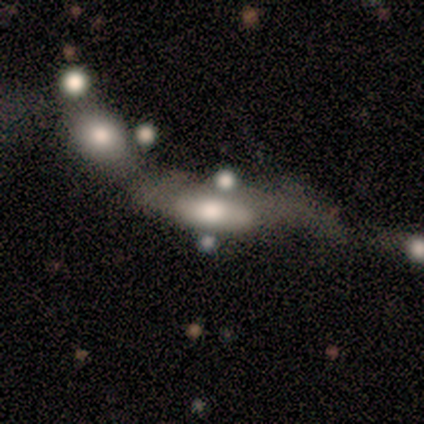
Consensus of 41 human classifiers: smooth_or_featured: smooth (p=0.49) [alt: featured or disk p=0.44]
how_rounded: in between (p=0.90) [alt: cigar-shaped p=0.10]
merging: merger (p=0.55) [alt: major disturbance p=0.29]